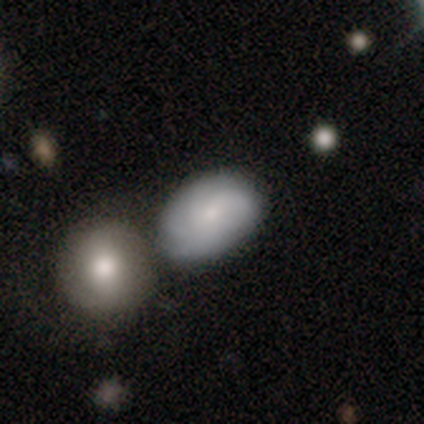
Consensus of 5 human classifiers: Smooth or featured?
  - featured or disk: 80% *
  - smooth: 20%
  - star or artifact: 0%
Edge-on disk?
  - no: 100% *
  - yes: 0%
Bar?
  - no: 75% *
  - strong: 25%
  - weak: 0%
Spiral arms?
  - yes: 100% *
  - no: 0%
Spiral winding?
  - medium: 75% *
  - tight: 25%
  - loose: 0%
Spiral arm count?
  - 2: 25% * (tied)
  - 3: 25% * (tied)
  - more than 4: 25% * (tied)
  - can't tell: 25% * (tied)
  - 1: 0%
  - 4: 0%
Bulge size?
  - small: 75% *
  - moderate: 25%
  - dominant: 0%
  - large: 0%
  - none: 0%
Merging?
  - none: 80% *
  - merger: 20%
  - minor disturbance: 0%
  - major disturbance: 0%